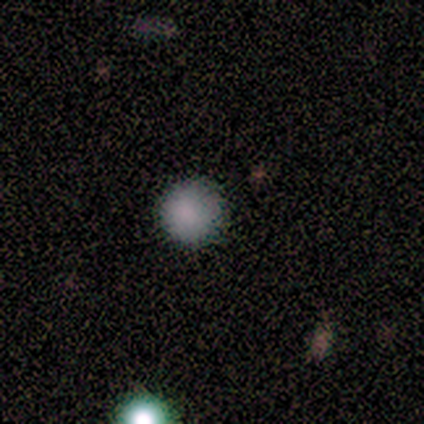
Smooth or featured? smooth (100%)
How rounded? round (100%)
Merging? none (100%)